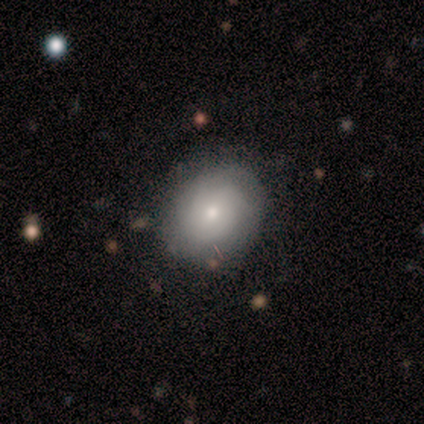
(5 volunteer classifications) Smooth or featured?
  - featured or disk: 60% *
  - star or artifact: 40%
  - smooth: 0%
Edge-on disk?
  - no: 67% *
  - yes: 33%
Bar?
  - no: 100% *
  - strong: 0%
  - weak: 0%
Spiral arms?
  - yes: 100% *
  - no: 0%
Spiral winding?
  - tight: 100% *
  - medium: 0%
  - loose: 0%
Spiral arm count?
  - can't tell: 100% *
  - 1: 0%
  - 2: 0%
  - 3: 0%
  - 4: 0%
  - more than 4: 0%
Bulge size?
  - moderate: 50% * (tied)
  - small: 50% * (tied)
  - dominant: 0%
  - large: 0%
  - none: 0%
Merging?
  - none: 67% *
  - major disturbance: 33%
  - minor disturbance: 0%
  - merger: 0%